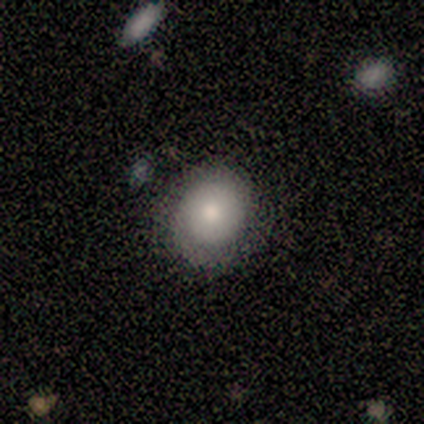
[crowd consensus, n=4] smooth_or_featured: smooth (p=0.75) [alt: featured or disk p=0.25]
how_rounded: round (p=1.00)
merging: none (p=1.00)